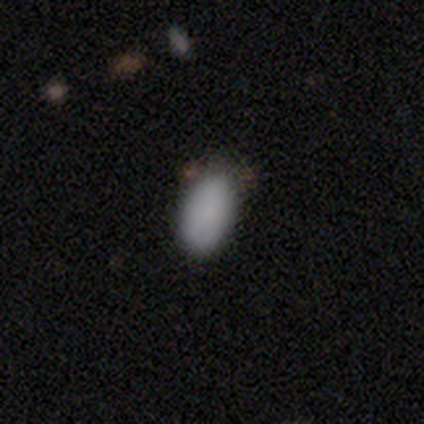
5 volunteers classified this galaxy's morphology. smooth_or_featured: smooth (p=0.80) [alt: featured or disk p=0.20]
how_rounded: in between (p=1.00)
merging: none (p=0.60) [alt: minor disturbance p=0.40]